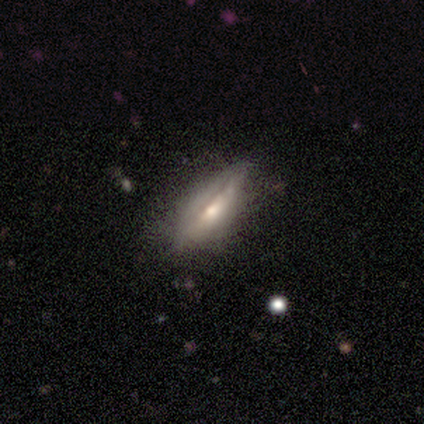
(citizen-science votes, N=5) Smooth or featured?
  - smooth: 60% *
  - featured or disk: 40%
  - star or artifact: 0%
How rounded?
  - in between: 67% *
  - cigar-shaped: 33%
  - round: 0%
Merging?
  - none: 80% *
  - minor disturbance: 20%
  - major disturbance: 0%
  - merger: 0%